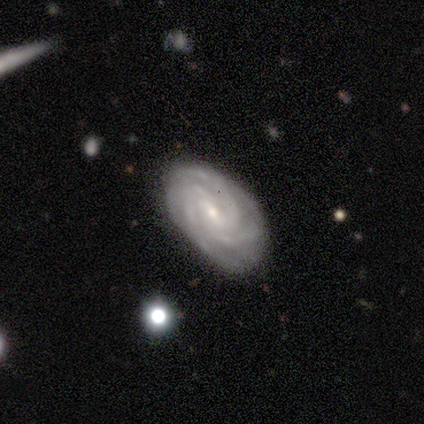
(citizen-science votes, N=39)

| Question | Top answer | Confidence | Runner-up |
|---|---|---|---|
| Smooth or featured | featured or disk | 90% | smooth (10%) |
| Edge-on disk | no | 97% | yes (3%) |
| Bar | weak | 71% | no (21%) |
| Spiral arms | yes | 97% | no (3%) |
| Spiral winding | tight | 79% | medium (18%) |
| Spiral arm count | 3 | 45% | 4 (24%) |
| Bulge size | small | 76% | moderate (15%) |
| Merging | none | 85% | minor disturbance (10%) |